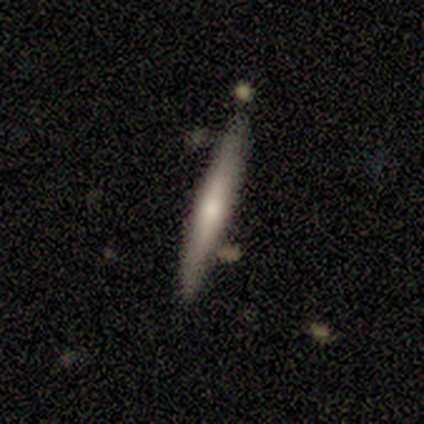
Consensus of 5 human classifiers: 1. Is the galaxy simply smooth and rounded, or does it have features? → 60% featured or disk, 20% smooth, 20% star or artifact.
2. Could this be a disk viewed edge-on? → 100% yes, 0% no.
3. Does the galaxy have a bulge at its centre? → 67% none, 33% rounded, 0% boxy.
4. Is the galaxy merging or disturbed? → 75% none, 25% minor disturbance, 0% major disturbance, 0% merger.